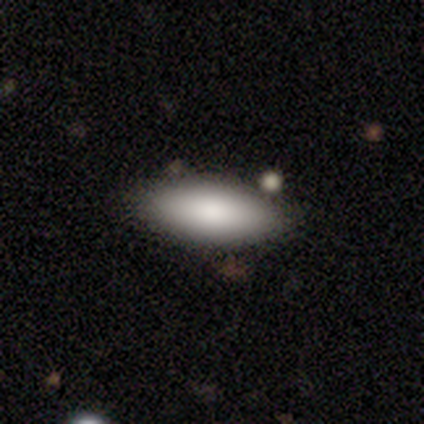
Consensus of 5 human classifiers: A smooth galaxy with no disk features (80%) that is in between round and cigar-shaped (100%). Merging: none (80%).